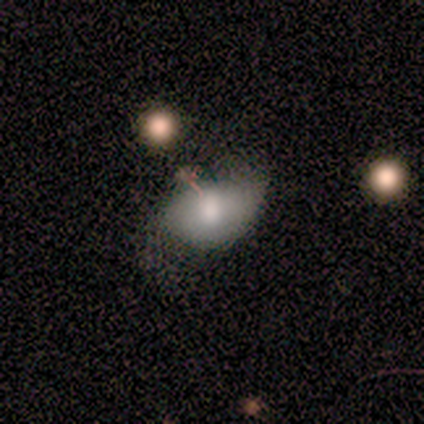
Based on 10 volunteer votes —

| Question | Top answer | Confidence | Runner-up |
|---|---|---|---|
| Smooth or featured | smooth | 60% | featured or disk (20%) |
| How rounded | in between | 100% | — |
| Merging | minor disturbance | 62% | none (38%) |